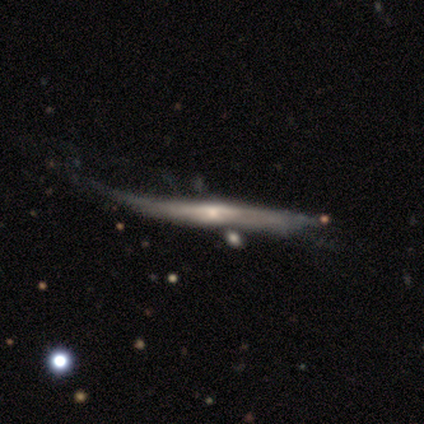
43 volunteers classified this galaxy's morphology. smooth_or_featured: featured or disk (p=0.77) [alt: smooth p=0.16]
disk_edge_on: yes (p=0.88) [alt: no p=0.12]
edge_on_bulge: rounded (p=0.55) [alt: none p=0.31]
merging: minor disturbance (p=0.40) [alt: major disturbance p=0.35]